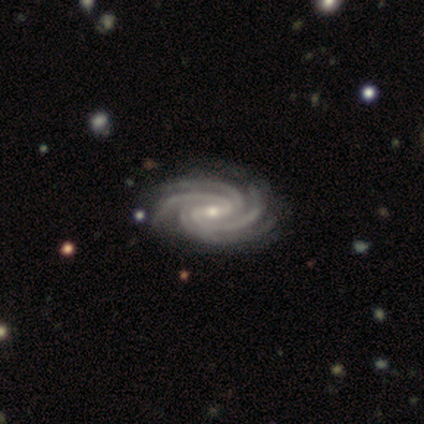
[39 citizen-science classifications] Morphology: type=featured or disk (97%); edge-on=no (100%); bar=weak (63%); spiral arms=yes (100%); winding=tight (66%); arm count=4 (76%); bulge=small (63%); merging=none (58%).